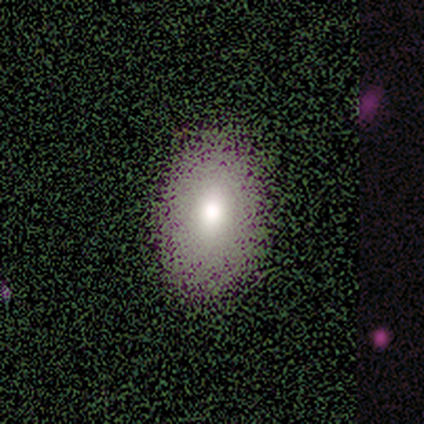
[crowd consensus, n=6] smooth 67%, star or artifact 33%, featured or disk 0%. Down the decision tree: how rounded — in between (100%); merging — none (75%).